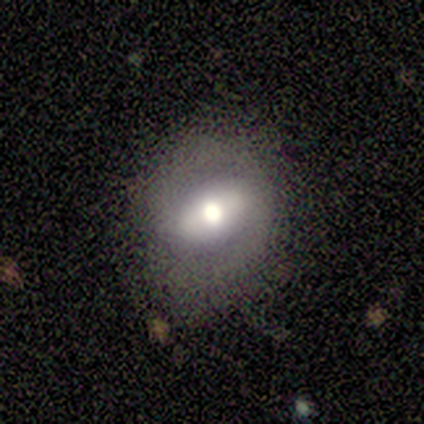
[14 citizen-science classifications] This appears to be a smooth galaxy with no disk features (57%) that is in between round and cigar-shaped (62%). Merging: none (85%).